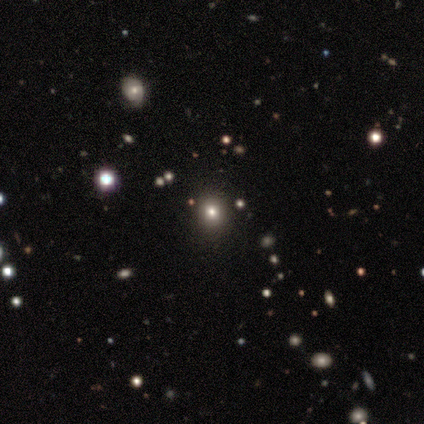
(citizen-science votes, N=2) Q: Smooth or featured?
A: smooth (100%)
Q: How rounded?
A: round (100%)
Q: Merging?
A: minor disturbance (50%); tied with: major disturbance (50%)